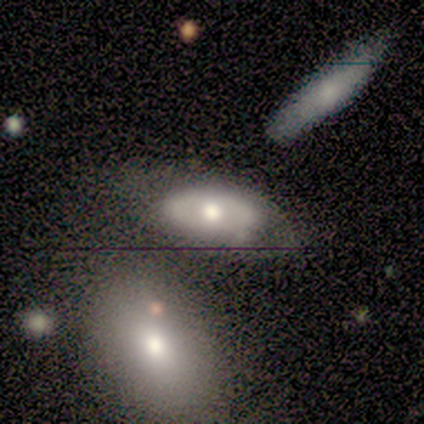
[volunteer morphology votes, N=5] smooth 60%, featured or disk 40%, star or artifact 0%. Down the decision tree: how rounded — in between (100%); merging — none (40%, tied with merger).